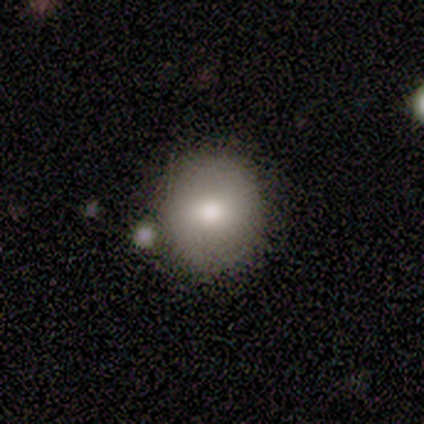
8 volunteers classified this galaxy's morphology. Overall: smooth (75%). How rounded: round (100%). Merging: none (67%; minor disturbance 33%).